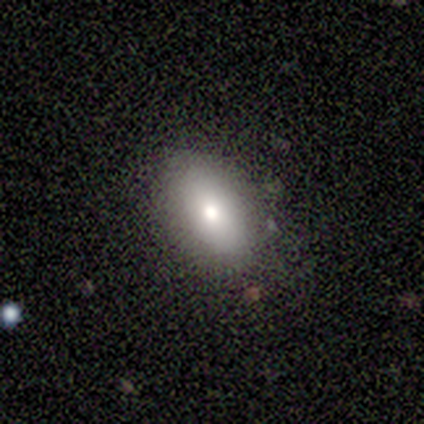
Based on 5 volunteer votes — smooth-or-featured: smooth: 100% | featured or disk: 0% | star or artifact: 0%
  how-rounded: in between: 100% | round: 0% | cigar-shaped: 0%
  merging: none: 100% | minor disturbance: 0% | major disturbance: 0% | merger: 0%